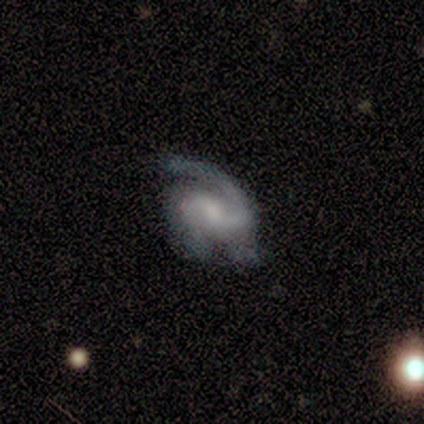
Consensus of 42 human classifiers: Volunteers were most divided on "merging" (2-way tie): none: 45%, minor disturbance: 45%, major disturbance: 10%, merger: 0%. Remaining: smooth or featured — featured or disk (98%); edge-on disk — no (98%); spiral arms — yes (98%); spiral arm count — 2 (64%); bar — no (50%); bulge size — none (42%); spiral winding — medium (36%).